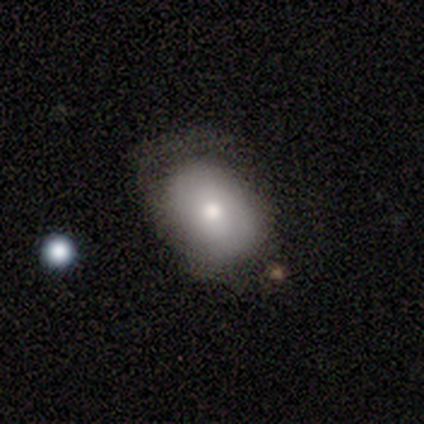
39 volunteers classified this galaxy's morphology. type=smooth (64%); roundness=in between (80%); merging=none (53%).